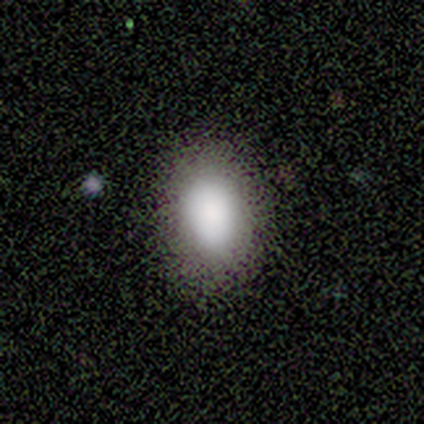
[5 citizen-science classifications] Volunteers were most divided on "how rounded": in between: 60%, round: 40%, cigar-shaped: 0%. More confident: smooth or featured — smooth (100%); merging — none (100%).